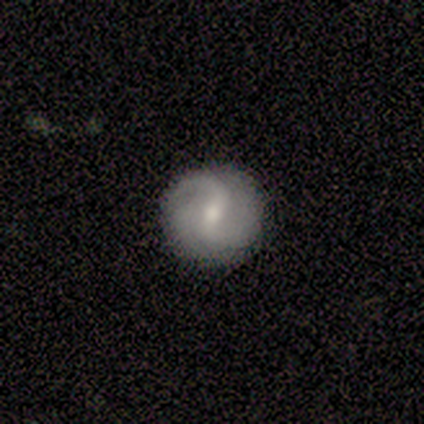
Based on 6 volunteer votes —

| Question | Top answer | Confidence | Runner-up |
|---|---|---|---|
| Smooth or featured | featured or disk | 67% | smooth (33%) |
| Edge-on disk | no | 100% | — |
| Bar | weak | 75% | strong (25%) |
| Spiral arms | yes | 75% | no (25%) |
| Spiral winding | medium | 67% | tight (33%) |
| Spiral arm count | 2 | 100% | — |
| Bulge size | small | 75% | moderate (25%) |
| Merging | none | 67% | minor disturbance (17%) |